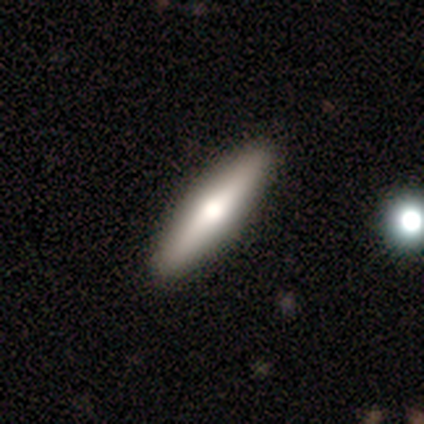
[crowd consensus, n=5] A smooth galaxy with no disk features (100%) that is in between round and cigar-shaped (60%). Merging: none (100%).